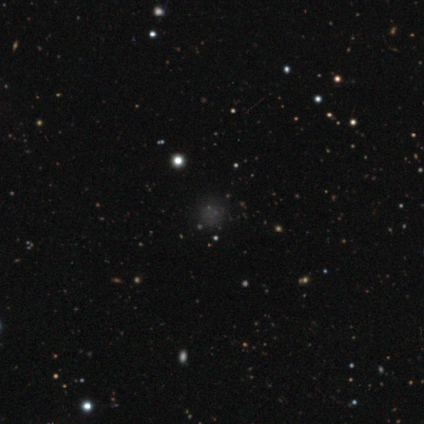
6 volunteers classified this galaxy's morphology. smooth-or-featured: star or artifact: 67% | smooth: 33% | featured or disk: 0%